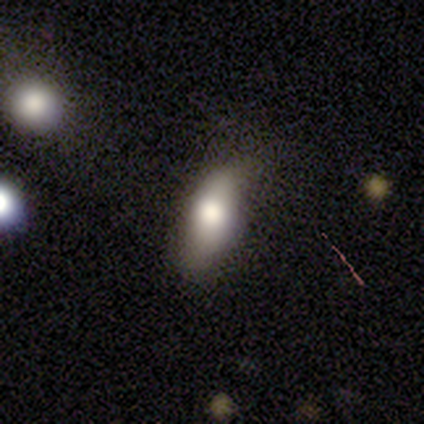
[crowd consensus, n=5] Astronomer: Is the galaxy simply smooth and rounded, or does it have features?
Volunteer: smooth — 60%.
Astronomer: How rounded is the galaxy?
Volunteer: in between — 67%.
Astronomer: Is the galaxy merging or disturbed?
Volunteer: minor disturbance — 75%.